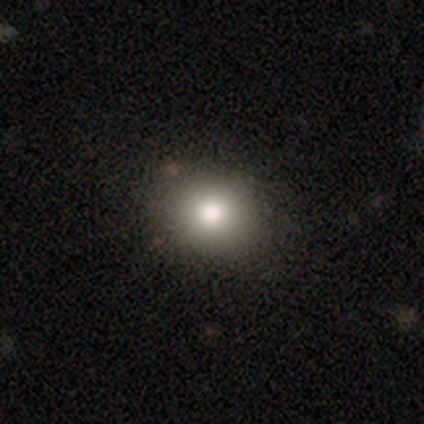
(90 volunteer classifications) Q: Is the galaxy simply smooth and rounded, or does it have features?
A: smooth — 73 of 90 (81%).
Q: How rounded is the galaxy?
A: round — 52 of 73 (71%).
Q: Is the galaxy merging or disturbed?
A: none — 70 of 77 (91%).